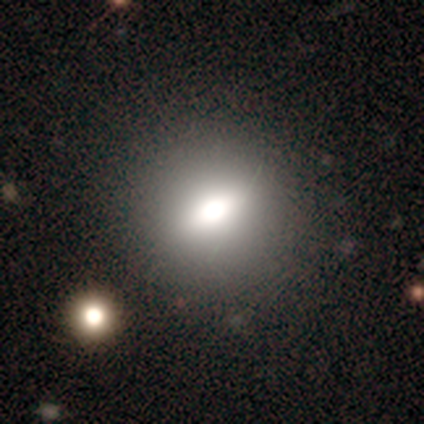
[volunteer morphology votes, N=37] Q: Smooth or featured?
A: smooth (65%); runner-up: featured or disk (24%)
Q: How rounded?
A: round (62%); runner-up: in between (38%)
Q: Merging?
A: none (82%); runner-up: minor disturbance (18%)